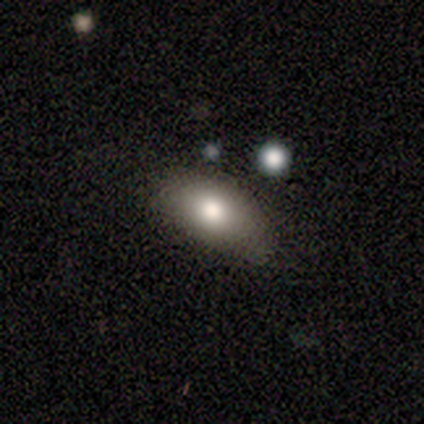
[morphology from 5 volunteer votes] A smooth galaxy with no disk features (80%) that is in between round and cigar-shaped (100%).

Vote fractions:
- Smooth or featured? smooth: 80% / featured or disk: 20% / star or artifact: 0%
- How rounded? in between: 100% / round: 0% / cigar-shaped: 0%
- Merging? none: 80% / major disturbance: 20% / minor disturbance: 0% / merger: 0%